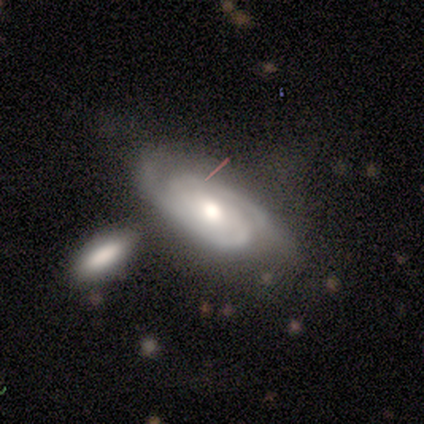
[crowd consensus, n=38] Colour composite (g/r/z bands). It shows a featured or disk galaxy (82%) with no bar (61%), 2 (92%) medium (58%) spiral arms (93%) and a moderate central bulge (79%). Merging: none (36%).